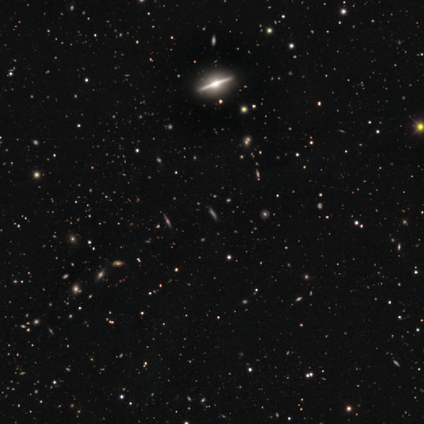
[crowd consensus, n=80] smooth-or-featured: featured or disk: 57% | star or artifact: 34% | smooth: 9%
  disk-edge-on: yes: 98% | no: 2%
    edge-on-bulge: rounded: 78% | boxy: 20% | none: 2%
  merging: none: 42% | merger: 6% | minor disturbance: 4% | major disturbance: 2%